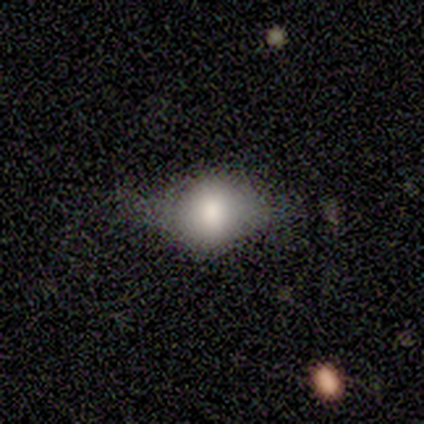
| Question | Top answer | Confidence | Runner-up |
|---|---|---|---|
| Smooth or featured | smooth | 50% | featured or disk (25%) |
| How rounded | round | 100% | — |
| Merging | none | 100% | — |